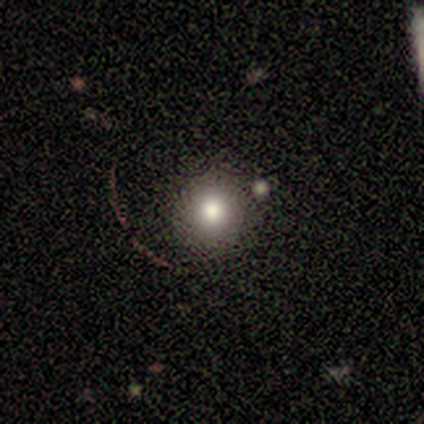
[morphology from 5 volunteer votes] Volunteers were most divided on "smooth or featured": star or artifact: 60%, smooth: 40%, featured or disk: 0%.